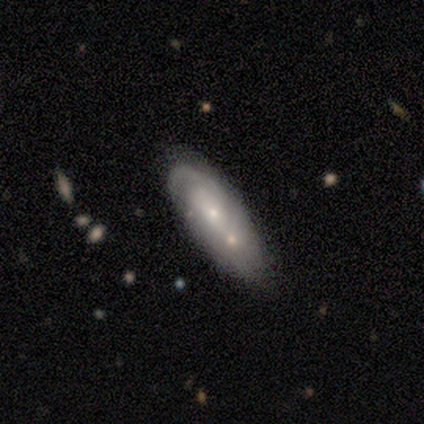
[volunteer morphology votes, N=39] A featured or disk galaxy (67%) with no bar (81%), tight (58%) spiral arms (57%) and a small central bulge (62%). Merging: merger (61%).